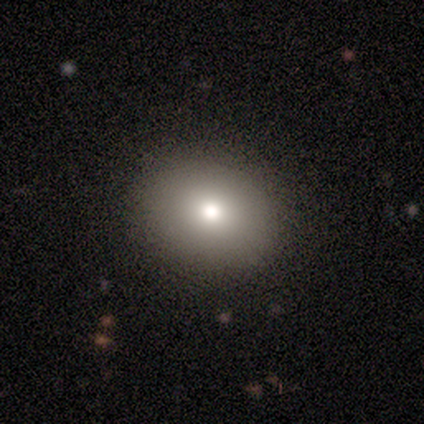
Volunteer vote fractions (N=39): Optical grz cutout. It shows a smooth galaxy with no disk features (72%) that is round (61%). Merging: none (91%).